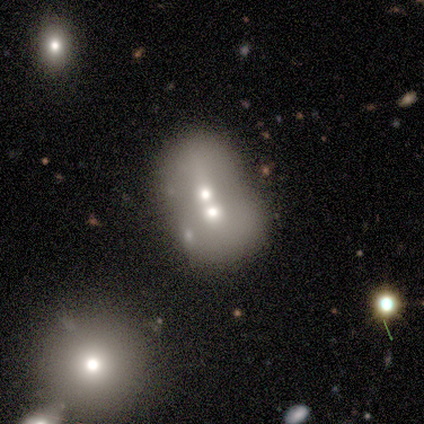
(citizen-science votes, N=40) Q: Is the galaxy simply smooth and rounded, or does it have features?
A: smooth — 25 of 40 (62%).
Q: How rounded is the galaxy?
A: round — 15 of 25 (60%).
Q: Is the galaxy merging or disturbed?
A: merger — 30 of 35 (86%).